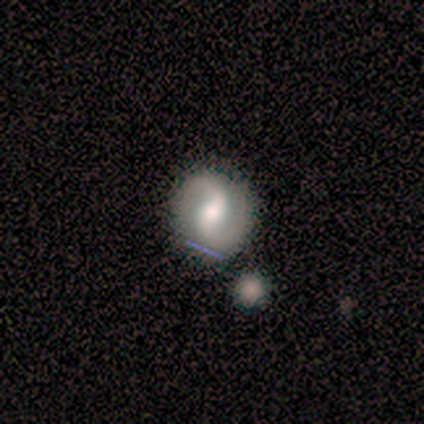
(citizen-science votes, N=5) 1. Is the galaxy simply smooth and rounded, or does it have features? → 100% featured or disk, 0% smooth, 0% star or artifact.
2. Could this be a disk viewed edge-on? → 100% no, 0% yes.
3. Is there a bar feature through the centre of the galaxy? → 40% weak (tied), 40% no (tied), 20% strong.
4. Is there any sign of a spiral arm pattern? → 100% yes, 0% no.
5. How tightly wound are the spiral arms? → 60% medium, 40% loose, 0% tight.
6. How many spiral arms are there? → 80% 2, 20% 1, 0% 3, 0% 4, 0% more than 4, 0% can't tell.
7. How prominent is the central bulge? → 100% moderate, 0% dominant, 0% large, 0% small, 0% none.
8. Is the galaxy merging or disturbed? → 80% none, 20% merger, 0% minor disturbance, 0% major disturbance.